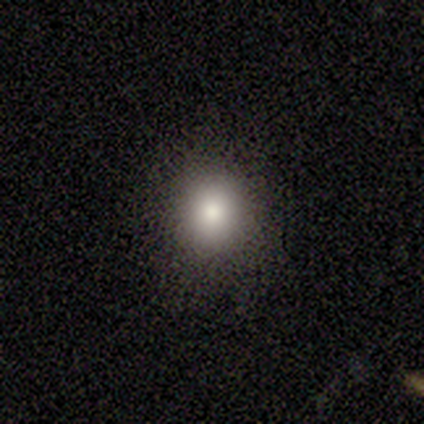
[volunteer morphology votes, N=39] Smooth or featured? 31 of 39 (79%) said smooth. How rounded? 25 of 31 (81%) said round. Merging? 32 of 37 (86%) said none.